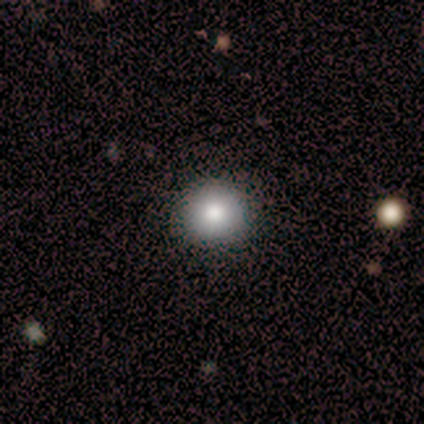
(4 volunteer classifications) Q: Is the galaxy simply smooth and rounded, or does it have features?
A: smooth — 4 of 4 (100%).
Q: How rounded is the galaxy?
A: round — 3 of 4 (75%).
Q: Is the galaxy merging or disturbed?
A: none — 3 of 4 (75%).